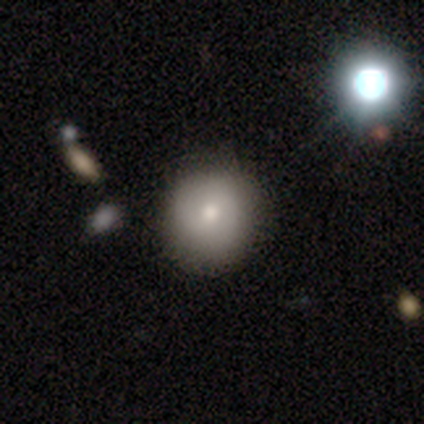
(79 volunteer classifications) This appears to be a smooth galaxy with no disk features (77%) that is round (95%). Merging: none (46%).